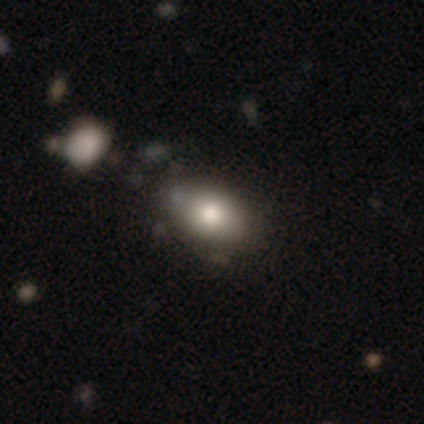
smooth_or_featured: smooth (p=1.00)
how_rounded: in between (p=0.75) [alt: round p=0.25]
merging: none (p=1.00)